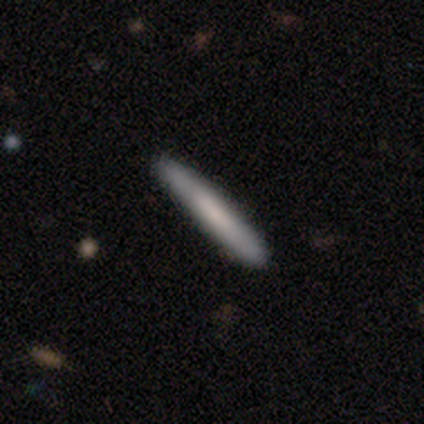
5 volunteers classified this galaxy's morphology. type=smooth (60%); roundness=cigar-shaped (100%); merging=none (100%).